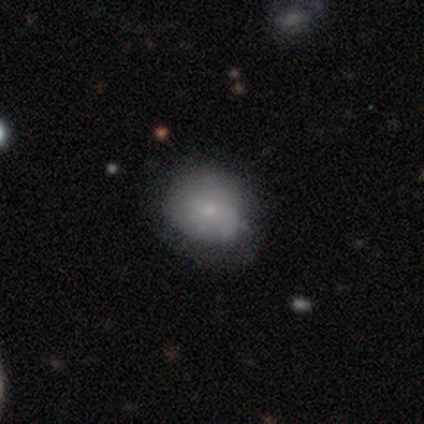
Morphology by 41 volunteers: A smooth galaxy with no disk features (73%) that is round (70%).

Vote fractions:
- Smooth or featured? smooth: 73% / featured or disk: 22% / star or artifact: 5%
- How rounded? round: 70% / in between: 30% / cigar-shaped: 0%
- Merging? none: 62% / minor disturbance: 38% / major disturbance: 0% / merger: 0%